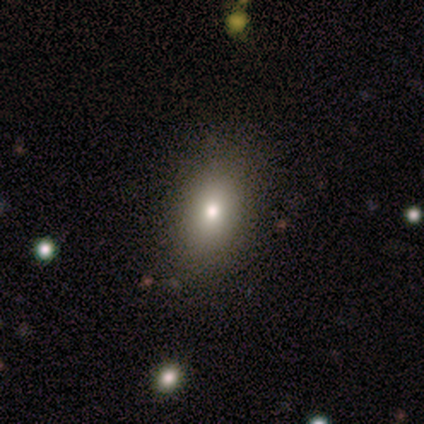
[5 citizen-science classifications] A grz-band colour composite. It shows a smooth galaxy with no disk features (60%) that is in between round and cigar-shaped (67%). Merging: none (100%).